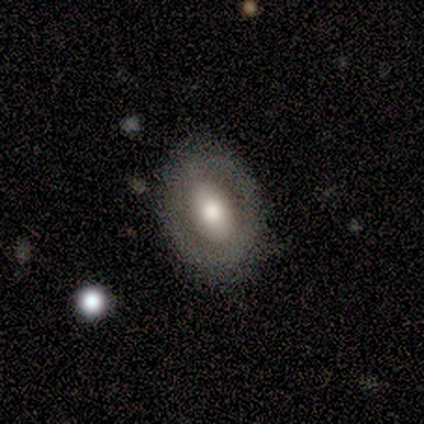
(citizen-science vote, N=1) This appears to be a featured or disk galaxy (100%) with a strong bar (100%), 2 (100%) tight (100%) spiral arms (100%) and a large central bulge (100%). Merging: none (100%).